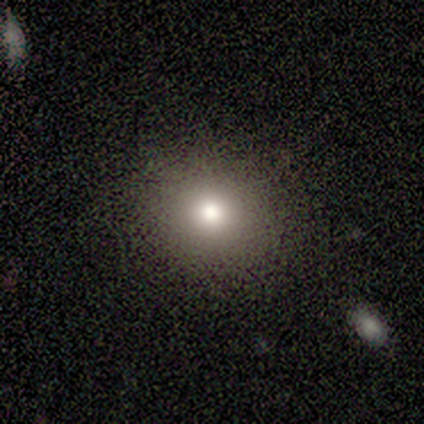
A smooth galaxy with no disk features (75%) that is round (67%).

Vote fractions:
- Smooth or featured? smooth: 75% / star or artifact: 25% / featured or disk: 0%
- How rounded? round: 67% / in between: 33% / cigar-shaped: 0%
- Merging? none: 67% / minor disturbance: 33% / major disturbance: 0% / merger: 0%